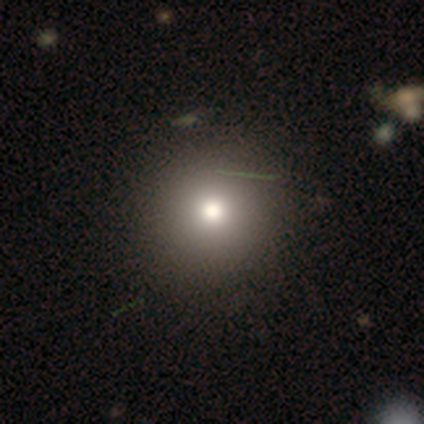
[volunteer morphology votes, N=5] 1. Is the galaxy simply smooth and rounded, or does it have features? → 80% smooth, 20% star or artifact, 0% featured or disk.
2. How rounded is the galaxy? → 100% round, 0% in between, 0% cigar-shaped.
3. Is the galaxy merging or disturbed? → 100% none, 0% minor disturbance, 0% major disturbance, 0% merger.